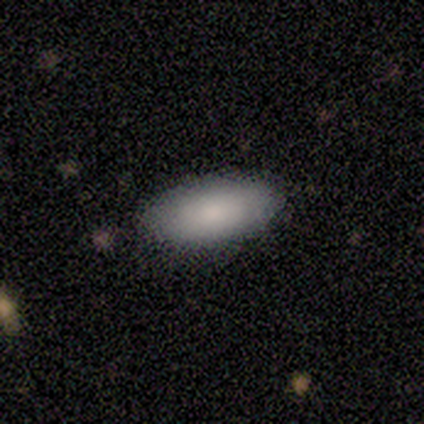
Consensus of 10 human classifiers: This is clearly a smooth galaxy (100%). How rounded: clearly in between (90%). Merging: clearly none (90%).